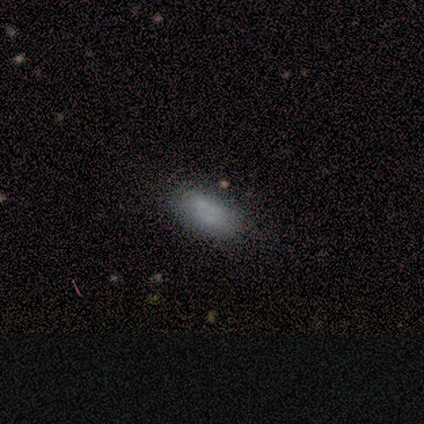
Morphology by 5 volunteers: This appears to be a featured or disk galaxy (40%, tied with star or artifact) viewed edge-on (50%, tied with no) with no central bulge (100%). Merging: minor disturbance (67%).